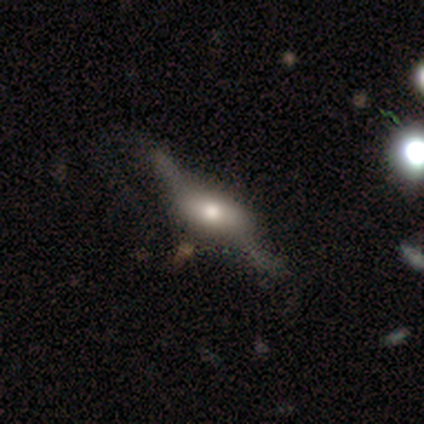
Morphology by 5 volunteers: type=featured or disk (80%); edge-on=yes (75%); edge-on bulge=rounded (67%); merging=none (50%).